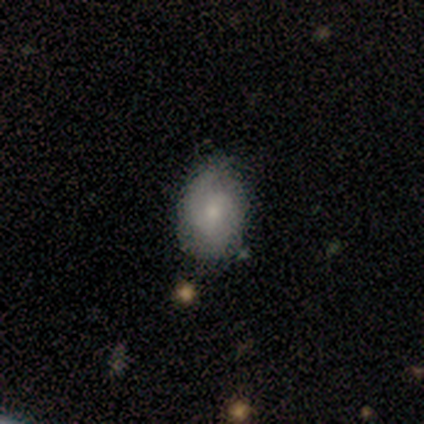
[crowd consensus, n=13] A smooth galaxy with no disk features (54%) that is in between round and cigar-shaped (71%). Merging: none (75%).